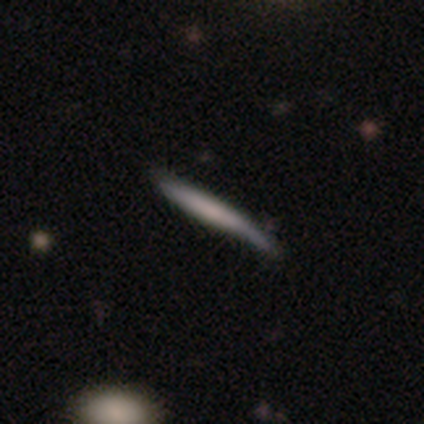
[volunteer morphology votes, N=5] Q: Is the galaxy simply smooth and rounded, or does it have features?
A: featured or disk — 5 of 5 (100%).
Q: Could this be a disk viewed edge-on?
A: yes — 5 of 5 (100%).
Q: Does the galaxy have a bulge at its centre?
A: boxy — 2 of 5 (40%, tied with none).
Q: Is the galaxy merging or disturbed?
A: none — 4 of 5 (80%).